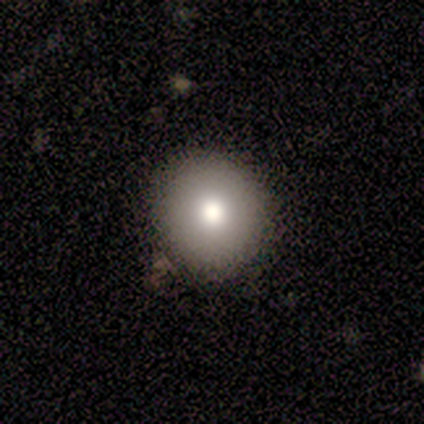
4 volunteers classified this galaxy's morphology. Q: Smooth or featured?
A: smooth (75%); runner-up: featured or disk (25%)
Q: How rounded?
A: round (100%)
Q: Merging?
A: none (100%)